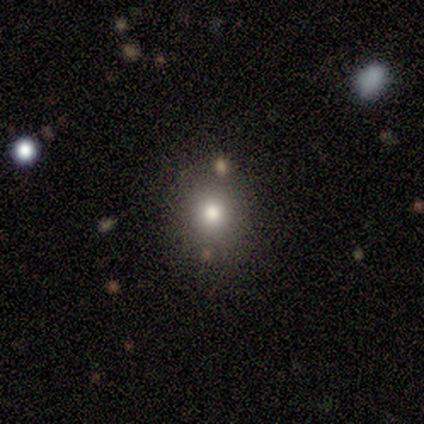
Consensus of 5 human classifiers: smooth_or_featured: smooth (p=0.80) [alt: star or artifact p=0.20]
how_rounded: round (p=0.75) [alt: in between p=0.25]
merging: none (p=0.75) [alt: merger p=0.25]